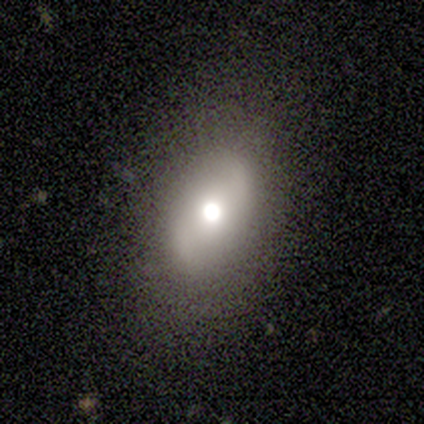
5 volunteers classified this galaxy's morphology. smooth-or-featured: featured or disk: 60% | smooth: 20% | star or artifact: 20%
  disk-edge-on: no: 100% | yes: 0%
    bar: no: 67% | weak: 33% | strong: 0%
    has-spiral-arms: yes: 67% | no: 33%
      spiral-winding: loose: 100% | tight: 0% | medium: 0%
      spiral-arm-count: 2: 100% | 1: 0% | 3: 0% | 4: 0% | more than 4: 0% | can't tell: 0%
    bulge-size: moderate: 67% | small: 33% | dominant: 0% | large: 0% | none: 0%
  merging: none: 100% | minor disturbance: 0% | major disturbance: 0% | merger: 0%